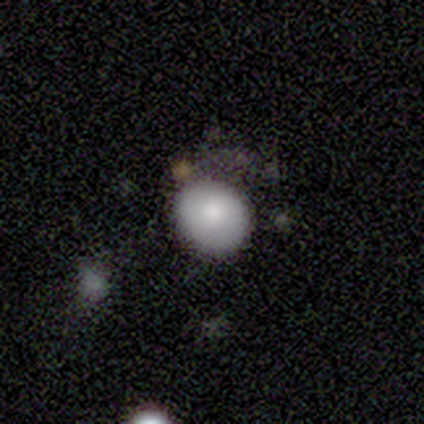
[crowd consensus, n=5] A smooth galaxy with no disk features (100%) that is round (100%).

Vote fractions:
- Smooth or featured? smooth: 100% / featured or disk: 0% / star or artifact: 0%
- How rounded? round: 100% / in between: 0% / cigar-shaped: 0%
- Merging? none: 40% (tied) / minor disturbance: 40% (tied) / merger: 20% / major disturbance: 0%